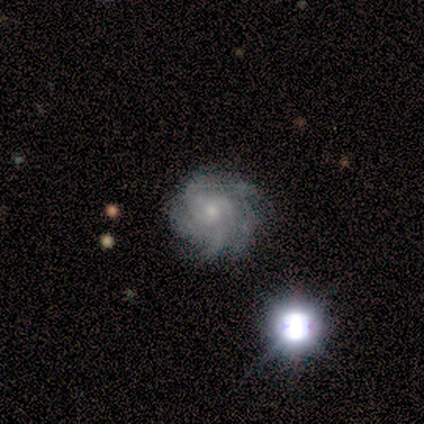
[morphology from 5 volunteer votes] featured or disk 100%, smooth 0%, star or artifact 0%. Down the decision tree: edge-on disk — no (100%); bar — no (80%); spiral arms — yes (100%); spiral arm count — can't tell (60%); spiral winding — tight (80%); bulge size — small (60%); merging — none (80%).